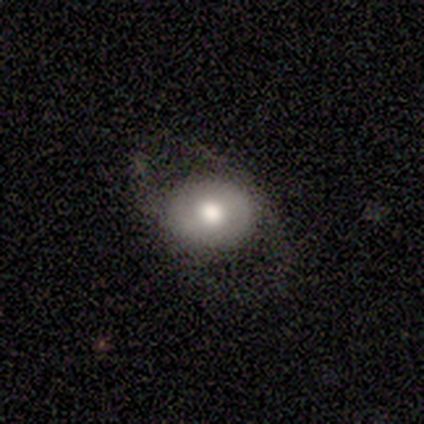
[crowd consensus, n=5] smooth_or_featured: smooth (p=0.60) [alt: featured or disk p=0.20]
how_rounded: round (p=1.00)
merging: none (p=0.75) [alt: major disturbance p=0.25]